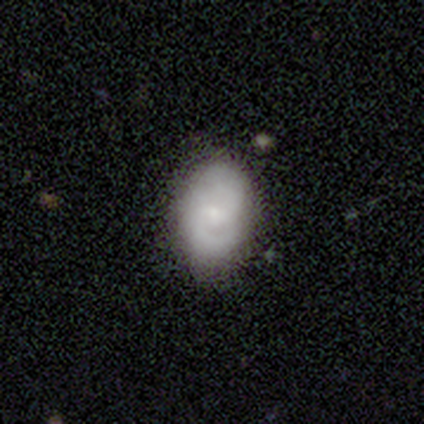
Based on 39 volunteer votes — This is possibly a featured or disk galaxy (51%). It is clearly not viewed edge-on (100%). Bar: likely no (65%). Spiral arm pattern: clearly yes (85%). Spiral arm count: clearly 2 (82%). Spiral winding: possibly medium (47%). Central bulge: likely small (75%). Merging: likely none (74%).